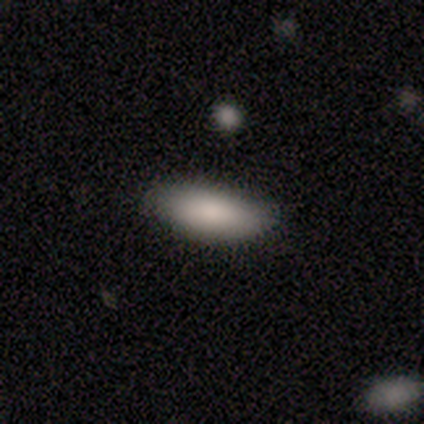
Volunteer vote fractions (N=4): A smooth galaxy with no disk features (100%) that is in between round and cigar-shaped (100%). Merging: none (100%).